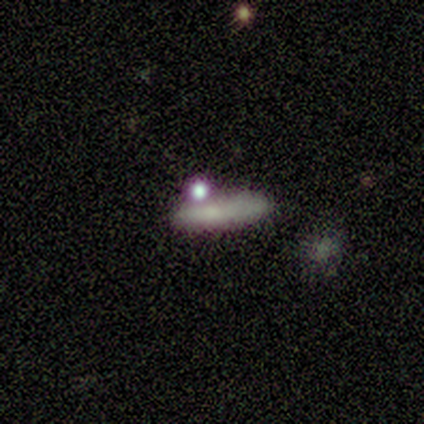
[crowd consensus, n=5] Smooth or featured? smooth (100%)
How rounded? cigar-shaped (100%)
Merging? none (100%)